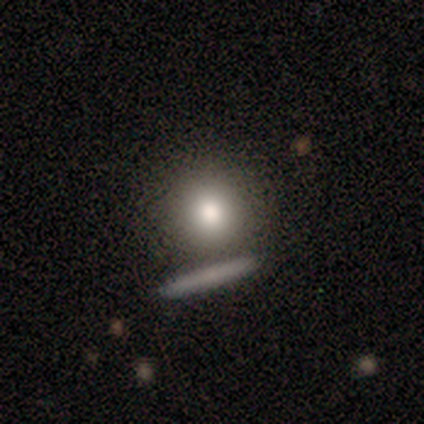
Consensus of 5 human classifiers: smooth_or_featured: smooth (p=0.60) [alt: featured or disk p=0.20]
how_rounded: round (p=1.00)
merging: none (p=0.75) [alt: minor disturbance p=0.25]